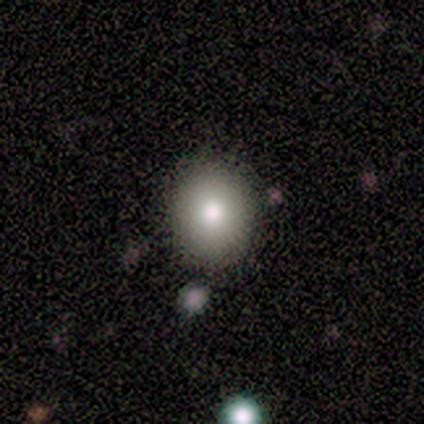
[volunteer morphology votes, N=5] A smooth galaxy with no disk features (60%) that is round (100%).

Vote fractions:
- Smooth or featured? smooth: 60% / featured or disk: 20% / star or artifact: 20%
- How rounded? round: 100% / in between: 0% / cigar-shaped: 0%
- Merging? none: 100% / minor disturbance: 0% / major disturbance: 0% / merger: 0%